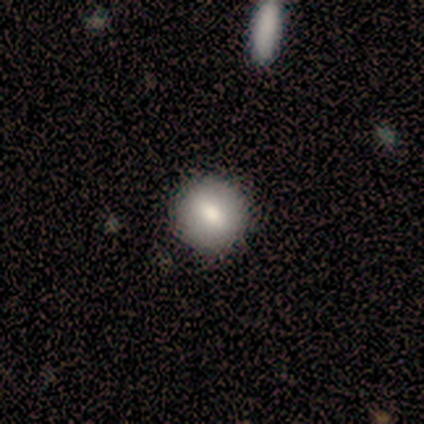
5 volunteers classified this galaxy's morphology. smooth 80%, star or artifact 20%, featured or disk 0%. Down the decision tree: how rounded — round (75%); merging — none (100%).